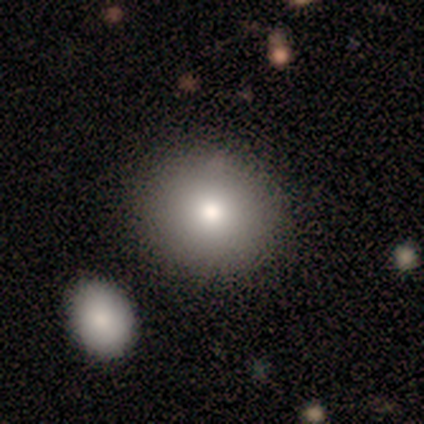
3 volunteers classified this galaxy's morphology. Smooth or featured: smooth — 100%
How rounded: round — 100%
Merging: none — 100%